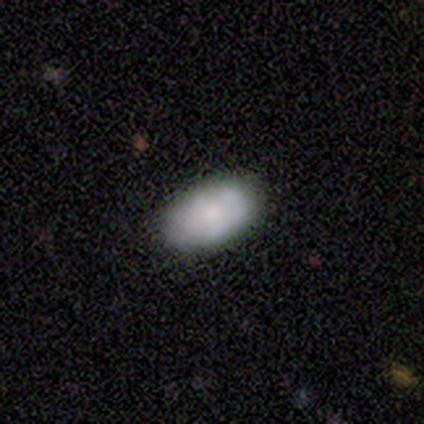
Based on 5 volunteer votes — Smooth or featured? smooth (80%)
How rounded? in between (100%)
Merging? none (100%)